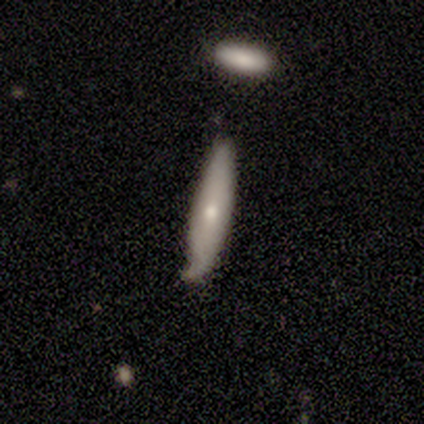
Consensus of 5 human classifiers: Overall: smooth (60%; featured or disk 40%). How rounded: cigar-shaped (67%; in between 33%). Merging: none (60%; minor disturbance 40%).